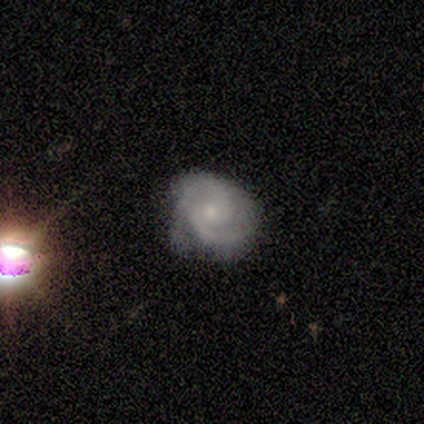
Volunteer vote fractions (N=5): smooth-or-featured: featured or disk: 80% | star or artifact: 20% | smooth: 0%
  disk-edge-on: no: 100% | yes: 0%
    bar: no: 75% | weak: 25% | strong: 0%
    has-spiral-arms: yes: 100% | no: 0%
      spiral-winding: tight: 100% | medium: 0% | loose: 0%
      spiral-arm-count: 2: 75% | can't tell: 25% | 1: 0% | 3: 0% | 4: 0% | more than 4: 0%
    bulge-size: small: 100% | dominant: 0% | large: 0% | moderate: 0% | none: 0%
  merging: none: 50% (tied) | major disturbance: 50% (tied) | minor disturbance: 0% | merger: 0%